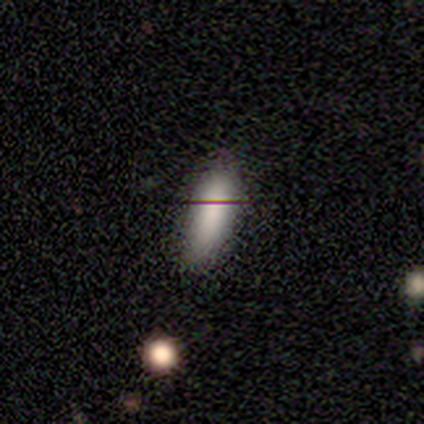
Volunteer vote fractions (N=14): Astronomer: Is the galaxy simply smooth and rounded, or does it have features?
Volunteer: smooth — 79%.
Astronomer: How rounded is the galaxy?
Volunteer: in between — 82%.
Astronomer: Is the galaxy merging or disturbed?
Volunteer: minor disturbance — 73%.